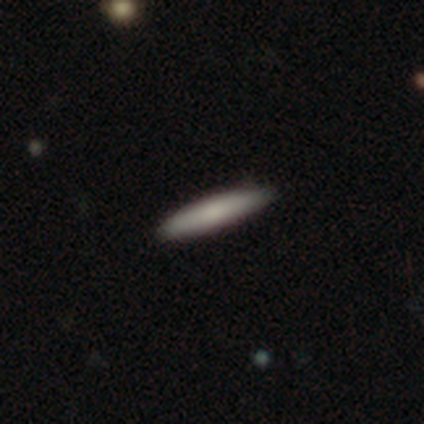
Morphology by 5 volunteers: A smooth galaxy with no disk features (80%) that is cigar-shaped (100%).

Vote fractions:
- Smooth or featured? smooth: 80% / featured or disk: 20% / star or artifact: 0%
- How rounded? cigar-shaped: 100% / round: 0% / in between: 0%
- Merging? none: 100% / minor disturbance: 0% / major disturbance: 0% / merger: 0%